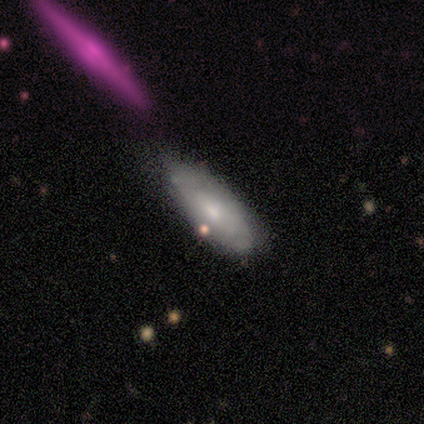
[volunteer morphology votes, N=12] Smooth or featured: smooth — 75% (featured or disk — 17%)
How rounded: in between — 78% (cigar-shaped — 22%)
Merging: none — 55% (minor disturbance — 36%)